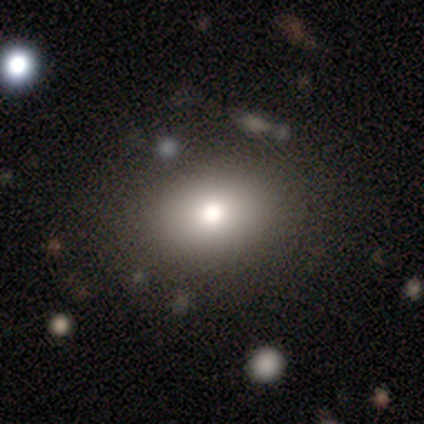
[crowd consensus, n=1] A smooth galaxy with no disk features (100%) that is in between round and cigar-shaped (100%).

Vote fractions:
- Smooth or featured? smooth: 100% / featured or disk: 0% / star or artifact: 0%
- How rounded? in between: 100% / round: 0% / cigar-shaped: 0%
- Merging? major disturbance: 100% / none: 0% / minor disturbance: 0% / merger: 0%